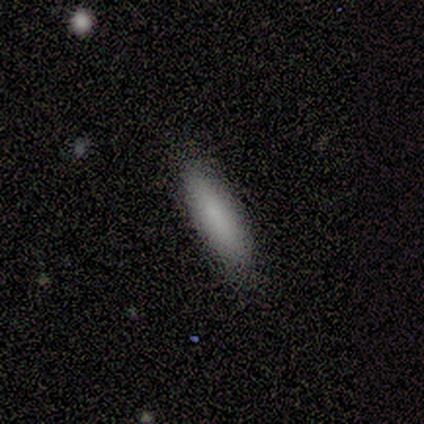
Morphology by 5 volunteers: Overall: smooth (100%). How rounded: cigar-shaped (60%; in between 40%). Merging: none (80%).